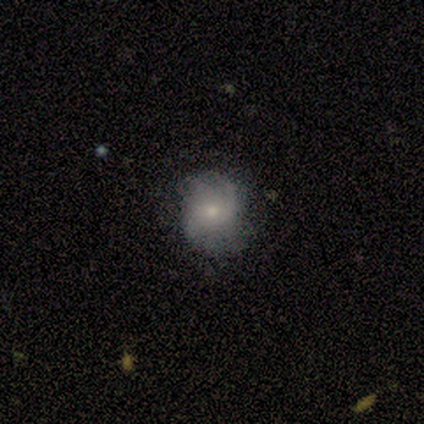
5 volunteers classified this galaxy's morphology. type=featured or disk (60%); edge-on=no (100%); bar=no (100%); spiral arms=yes (67%); winding=tight (50%, tied with loose); arm count=can't tell (100%); bulge=moderate (67%); merging=minor disturbance (60%).